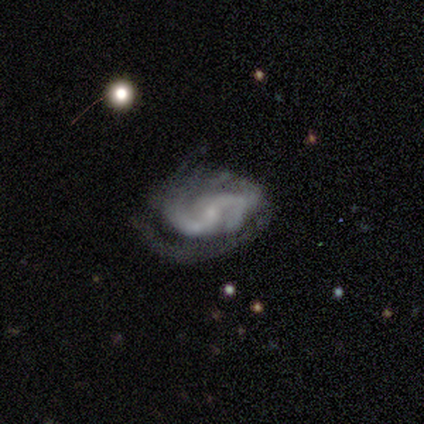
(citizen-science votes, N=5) This is clearly a featured or disk galaxy (100%). It is clearly not viewed edge-on (100%). Bar: likely weak (60%). Spiral arm pattern: clearly yes (100%). Spiral arm count: likely 2 (60%). Spiral winding: likely loose (60%). Central bulge: clearly small (80%). Merging: clearly none (80%).